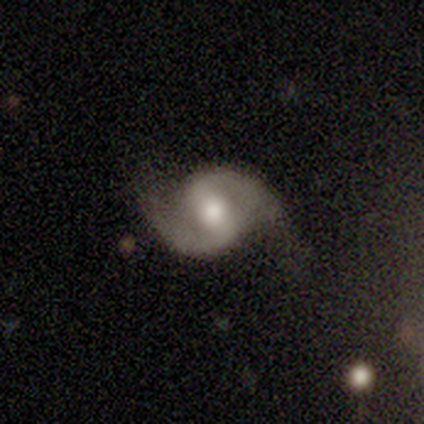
Volunteers were most divided on "bar": weak: 50%, strong: 25%, no: 25%. More confident: smooth or featured — featured or disk (100%); edge-on disk — no (100%); spiral arm count — 2 (100%); merging — none (100%); spiral arms — yes (75%); bulge size — moderate (75%); spiral winding — loose (67%).